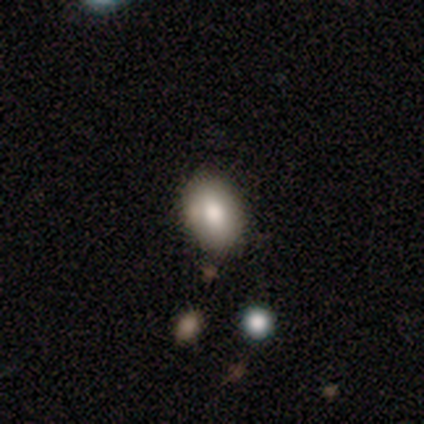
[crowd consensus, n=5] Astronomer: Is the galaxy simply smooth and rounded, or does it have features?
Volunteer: smooth — 100%.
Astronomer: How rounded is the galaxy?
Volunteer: in between — 100%.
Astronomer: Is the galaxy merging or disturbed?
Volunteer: none — 60% (runner-up: minor disturbance, 40%).